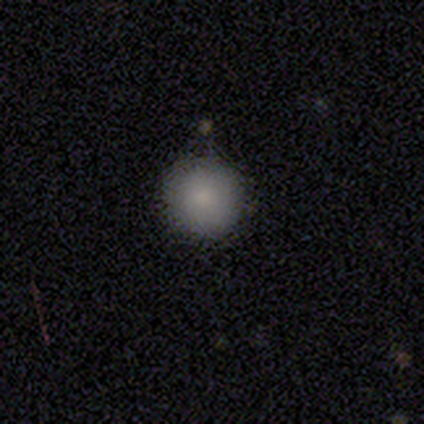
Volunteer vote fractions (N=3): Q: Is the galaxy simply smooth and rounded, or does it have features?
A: smooth — 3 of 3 (100%).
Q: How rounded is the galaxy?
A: round — 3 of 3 (100%).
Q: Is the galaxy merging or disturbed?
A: none — 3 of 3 (100%).